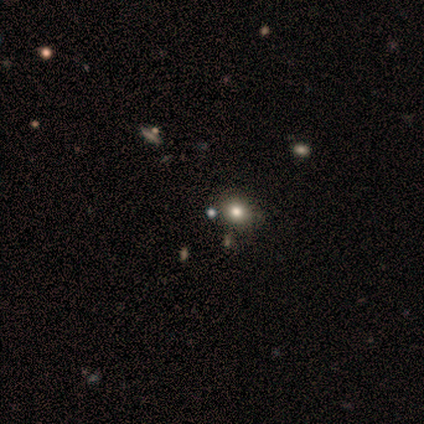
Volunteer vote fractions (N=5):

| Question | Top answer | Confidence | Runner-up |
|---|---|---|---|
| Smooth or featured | smooth | 80% | star or artifact (20%) |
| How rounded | round | 75% | in between (25%) |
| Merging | none | 75% | merger (25%) |